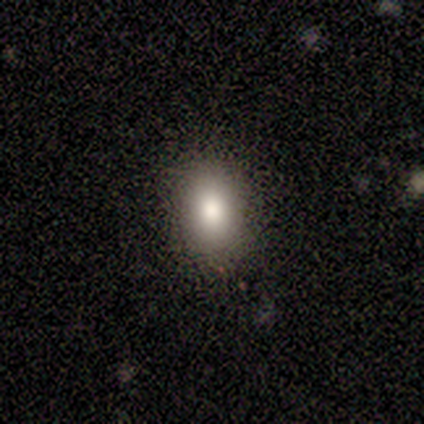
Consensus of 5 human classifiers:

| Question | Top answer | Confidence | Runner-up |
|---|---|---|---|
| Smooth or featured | smooth | 80% | star or artifact (20%) |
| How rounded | in between | 100% | — |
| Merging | none | 75% | major disturbance (25%) |